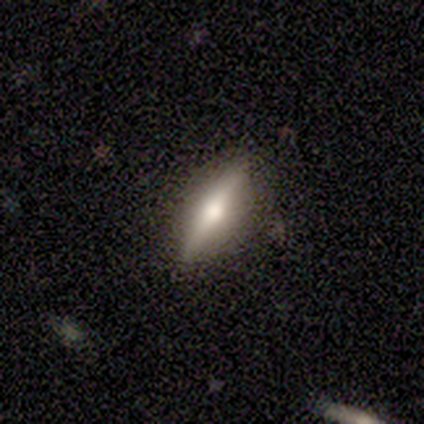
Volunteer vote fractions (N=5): Smooth or featured? 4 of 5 (80%) said smooth. How rounded? 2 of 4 (50%, tied with cigar-shaped) said in between. Merging? 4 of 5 (80%) said none.